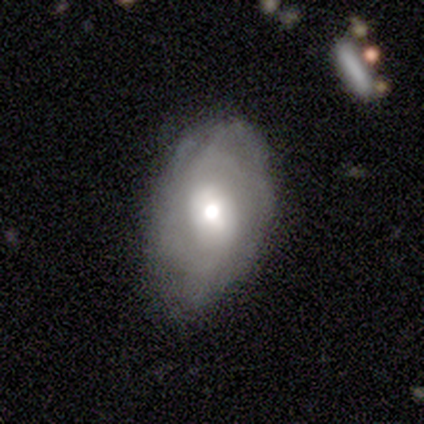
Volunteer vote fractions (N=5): Smooth or featured? 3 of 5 (60%) said smooth. How rounded? 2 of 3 (67%) said in between. Merging? 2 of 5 (40%, tied with minor disturbance) said none.